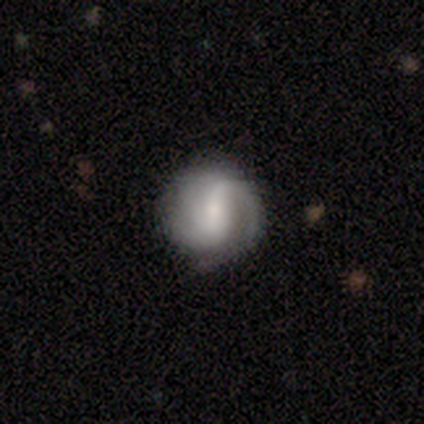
This is clearly a featured or disk galaxy (100%). It is clearly not viewed edge-on (80%). Bar: possibly strong (50%). Spiral arm pattern: clearly yes (100%). Spiral arm count: possibly 1 (50%, tied with 2). Spiral winding: possibly medium (50%, tied with loose). Central bulge: possibly moderate (50%, tied with small). Merging: likely none (60%).